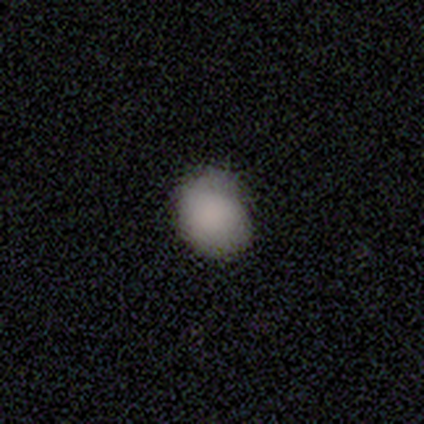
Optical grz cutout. It shows a smooth galaxy with no disk features (90%) that is round (63%). Merging: none (90%).